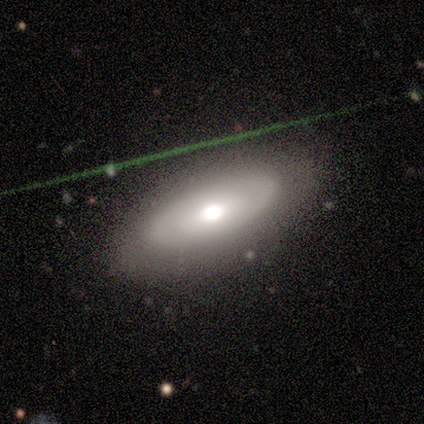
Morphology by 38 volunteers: Smooth or featured?
  - smooth: 53% *
  - featured or disk: 47%
  - star or artifact: 0%
How rounded?
  - in between: 80% *
  - cigar-shaped: 15%
  - round: 5%
Merging?
  - none: 79% *
  - minor disturbance: 16%
  - major disturbance: 3%
  - merger: 3%